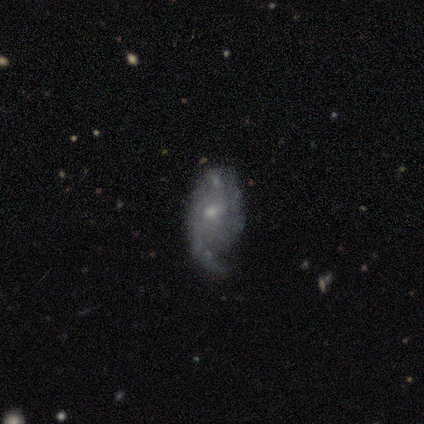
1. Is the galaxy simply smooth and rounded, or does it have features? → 82% featured or disk, 10% smooth, 8% star or artifact.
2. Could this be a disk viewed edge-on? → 100% no, 0% yes.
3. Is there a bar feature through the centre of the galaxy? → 70% no, 24% weak, 6% strong.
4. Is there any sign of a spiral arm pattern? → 85% yes, 15% no.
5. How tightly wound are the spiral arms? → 39% medium, 32% tight, 29% loose.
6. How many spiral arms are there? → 43% 2, 36% 1, 21% can't tell, 0% 3, 0% 4, 0% more than 4.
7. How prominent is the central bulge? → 76% small, 21% moderate, 3% none, 0% dominant, 0% large.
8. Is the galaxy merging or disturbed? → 65% none, 22% minor disturbance, 14% major disturbance, 0% merger.